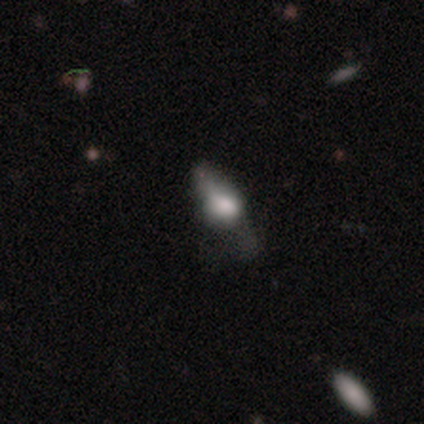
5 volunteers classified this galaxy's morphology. Smooth or featured?
  - featured or disk: 60% *
  - smooth: 40%
  - star or artifact: 0%
Edge-on disk?
  - no: 67% *
  - yes: 33%
Bar?
  - weak: 50% * (tied)
  - no: 50% * (tied)
  - strong: 0%
Spiral arms?
  - no: 100% *
  - yes: 0%
Bulge size?
  - dominant: 50% * (tied)
  - small: 50% * (tied)
  - large: 0%
  - moderate: 0%
  - none: 0%
Merging?
  - none: 80% *
  - major disturbance: 20%
  - minor disturbance: 0%
  - merger: 0%